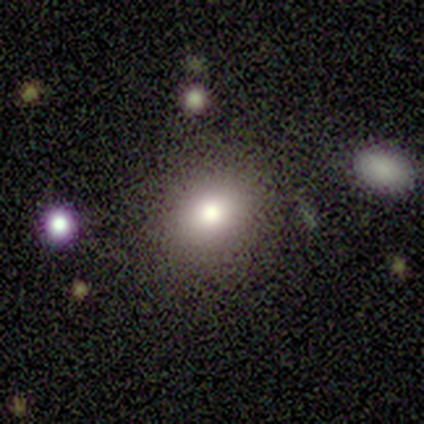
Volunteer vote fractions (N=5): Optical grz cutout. It shows a smooth galaxy with no disk features (80%) that is round (50%, tied with in between). Merging: none (75%).